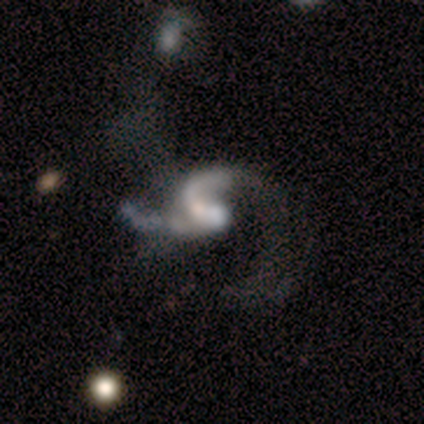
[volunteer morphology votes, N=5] featured or disk 80%, star or artifact 20%, smooth 0%. Down the decision tree: edge-on disk — no (100%); bar — weak (50%, tied with no); spiral arms — yes (75%); spiral arm count — 2 (67%); spiral winding — loose (100%); bulge size — moderate (75%); merging — major disturbance (50%).